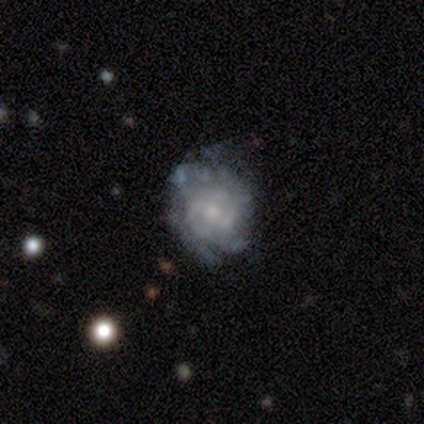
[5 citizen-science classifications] A featured or disk galaxy (80%) with no bar (75%), medium (67%) spiral arms (75%) and a small central bulge (100%).

Vote fractions:
- Smooth or featured? featured or disk: 80% / smooth: 20% / star or artifact: 0%
- Edge-on disk? no: 100% / yes: 0%
- Bar? no: 75% / weak: 25% / strong: 0%
- Spiral arms? yes: 75% / no: 25%
- Spiral winding? medium: 67% / tight: 33% / loose: 0%
- Spiral arm count? can't tell: 100% / 1: 0% / 2: 0% / 3: 0% / 4: 0% / more than 4: 0%
- Bulge size? small: 100% / dominant: 0% / large: 0% / moderate: 0% / none: 0%
- Merging? none: 80% / major disturbance: 20% / minor disturbance: 0% / merger: 0%